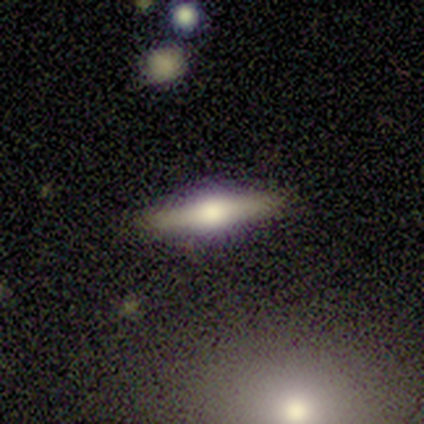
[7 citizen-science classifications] smooth-or-featured: featured or disk: 86% | smooth: 14% | star or artifact: 0%
  disk-edge-on: yes: 83% | no: 17%
    edge-on-bulge: rounded: 80% | boxy: 20% | none: 0%
  merging: none: 100% | minor disturbance: 0% | major disturbance: 0% | merger: 0%